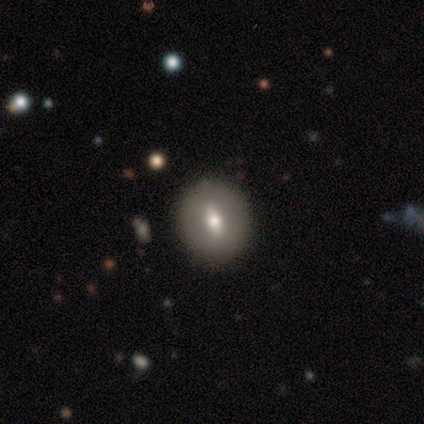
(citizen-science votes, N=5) Morphology: type=smooth (60%); roundness=in between (67%); merging=none (100%).